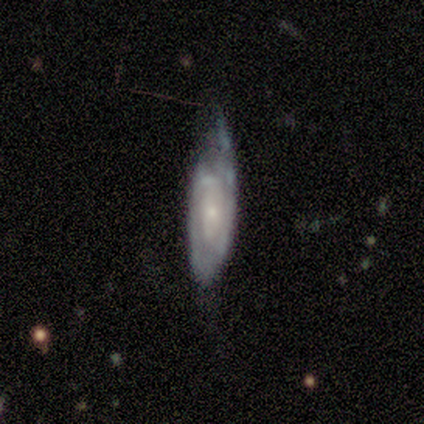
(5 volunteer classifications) Overall: featured or disk (80%). Edge-on disk: no (100%). Bar: weak (50%, tied with no). Spiral arms: yes (75%). Spiral arm count: can't tell (67%; 2 33%). Spiral winding: tight (67%; medium 33%). Bulge size: small (75%). Merging: none (60%; minor disturbance 40%).